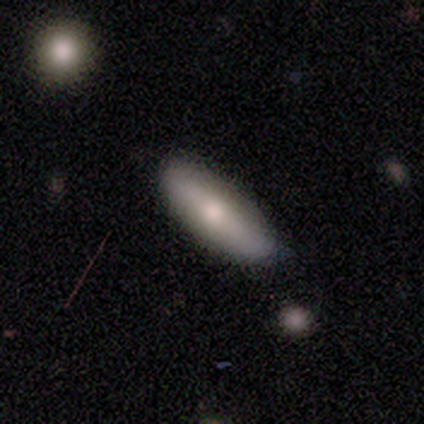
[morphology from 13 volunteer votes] smooth-or-featured: smooth: 92% | star or artifact: 8% | featured or disk: 0%
  how-rounded: in between: 58% | cigar-shaped: 42% | round: 0%
  merging: none: 75% | minor disturbance: 25% | major disturbance: 0% | merger: 0%